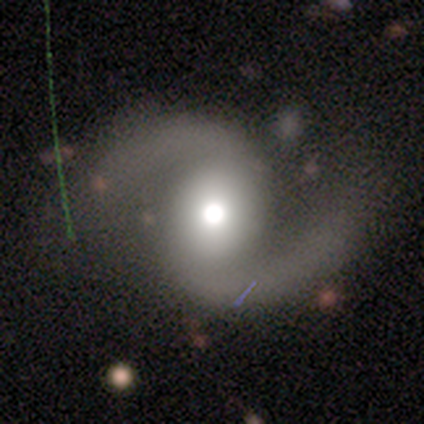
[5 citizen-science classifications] smooth-or-featured: featured or disk: 100% | smooth: 0% | star or artifact: 0%
  disk-edge-on: no: 100% | yes: 0%
    bar: strong: 60% | weak: 20% | no: 20%
    has-spiral-arms: yes: 100% | no: 0%
      spiral-winding: loose: 80% | medium: 20% | tight: 0%
      spiral-arm-count: 2: 80% | can't tell: 20% | 1: 0% | 3: 0% | 4: 0% | more than 4: 0%
    bulge-size: large: 40% (tied) | moderate: 40% (tied) | small: 20% | dominant: 0% | none: 0%
  merging: minor disturbance: 40% (tied) | major disturbance: 40% (tied) | none: 20% | merger: 0%